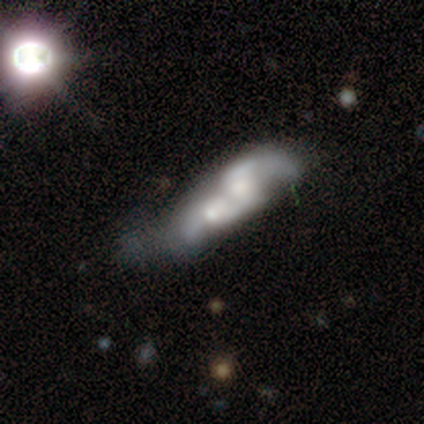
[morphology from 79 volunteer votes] Overall: featured or disk (63%; smooth 25%). Edge-on disk: no (90%). Bar: no (82%). Spiral arms: yes (60%; no 40%). Spiral arm count: 2 (59%; can't tell 22%). Spiral winding: loose (48%; medium 33%). Bulge size: moderate (51%; small 20%). Merging: merger (54%).